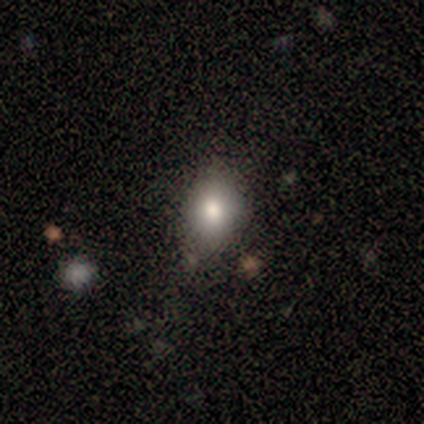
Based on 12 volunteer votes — Q: Smooth or featured?
A: smooth (92%); runner-up: star or artifact (8%)
Q: How rounded?
A: in between (73%); runner-up: round (27%)
Q: Merging?
A: none (100%)